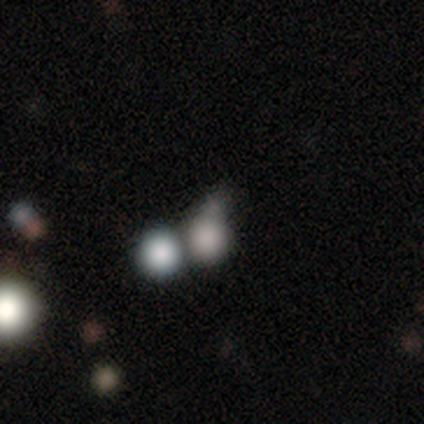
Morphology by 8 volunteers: This is clearly a smooth galaxy (100%). How rounded: clearly round (100%). Merging: marginally none (38%, tied with minor disturbance).